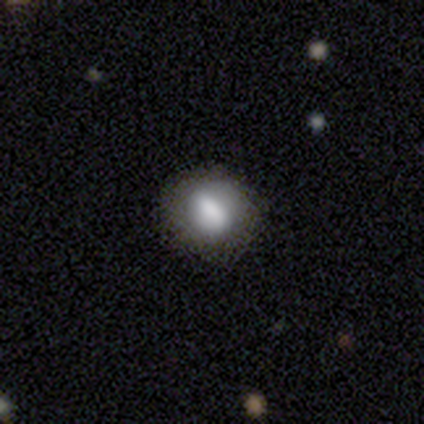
A smooth galaxy with no disk features (68%) that is round (54%).

Vote fractions:
- Smooth or featured? smooth: 68% / featured or disk: 24% / star or artifact: 8%
- How rounded? round: 54% / in between: 46% / cigar-shaped: 0%
- Merging? none: 71% / minor disturbance: 17% / major disturbance: 9% / merger: 3%